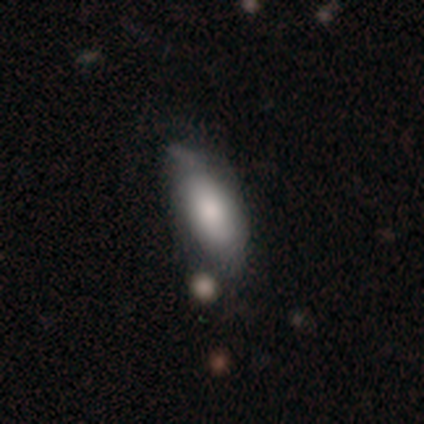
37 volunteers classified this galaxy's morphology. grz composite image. It shows a smooth galaxy with no disk features (65%) that is in between round and cigar-shaped (92%). Merging: none (39%, tied with minor disturbance).